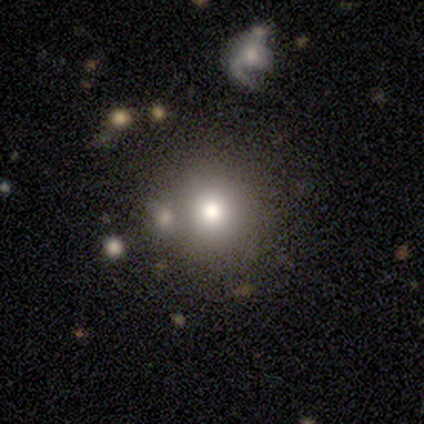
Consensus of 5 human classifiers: A smooth galaxy with no disk features (100%) that is round (100%). Merging: none (60%).